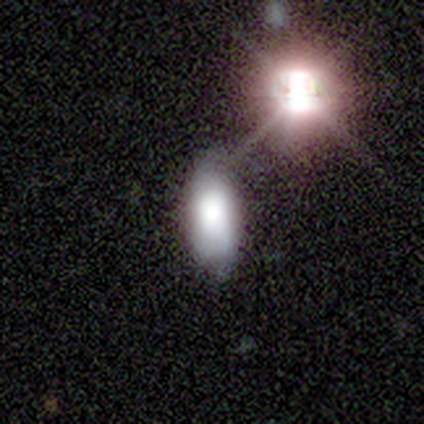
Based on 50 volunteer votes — smooth_or_featured: smooth (p=0.62) [alt: featured or disk p=0.22]
how_rounded: in between (p=0.94) [alt: cigar-shaped p=0.06]
merging: none (p=0.52) [alt: minor disturbance p=0.36]